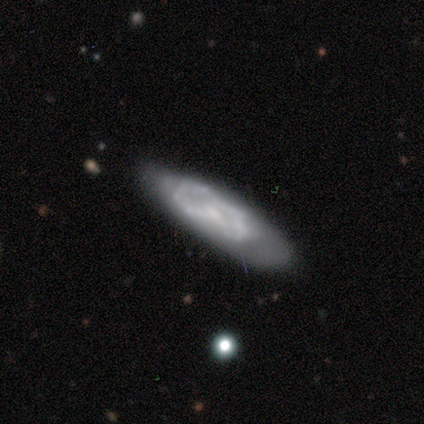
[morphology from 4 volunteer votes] Volunteers were most divided on "bar" (2-way tie): weak: 50%, no: 50%, strong: 0%; "spiral winding" (2-way tie): tight: 50%, medium: 50%, loose: 0%; "spiral arm count" (2-way tie): 2: 50%, can't tell: 50%, 1: 0%, 3: 0%, 4: 0%, more than 4: 0%; "bulge size" (2-way tie): moderate: 50%, small: 50%, dominant: 0%, large: 0%, none: 0%; "merging" (3-way tie): none: 33%, minor disturbance: 33%, major disturbance: 33%, merger: 0%. More confident: edge-on disk — no (100%); spiral arms — yes (100%); smooth or featured — featured or disk (50%).